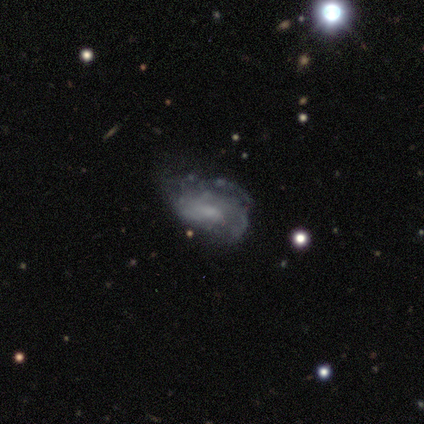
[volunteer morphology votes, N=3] Smooth or featured: smooth — 33% (tied with featured or disk — 33%; star or artifact — 33%)
How rounded: in between — 100%
Merging: none — 100%